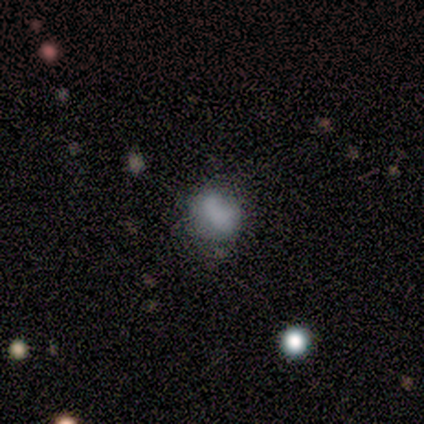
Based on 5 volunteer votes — Smooth or featured: smooth — 60% (featured or disk — 40%)
How rounded: round — 100%
Merging: none — 60% (minor disturbance — 40%)